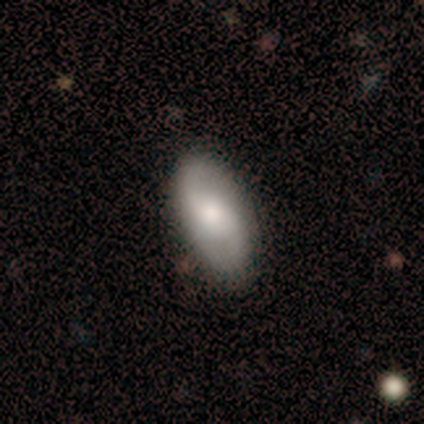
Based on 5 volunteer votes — smooth_or_featured: featured or disk (p=0.60) [alt: smooth p=0.40]
disk_edge_on: no (p=1.00)
bar: weak (p=0.67) [alt: no p=0.33]
has_spiral_arms: yes (p=1.00)
spiral_winding: loose (p=0.67) [alt: tight p=0.33]
spiral_arm_count: 2 (p=1.00)
bulge_size: moderate (p=0.67) [alt: none p=0.33]
merging: none (p=0.80) [alt: minor disturbance p=0.20]